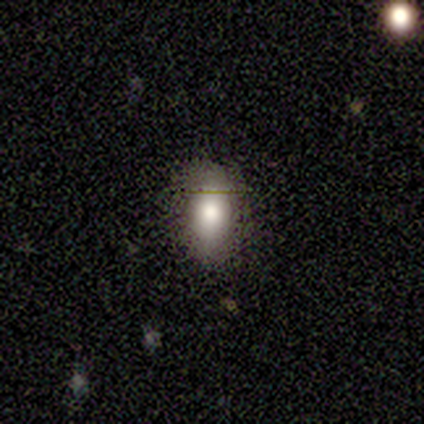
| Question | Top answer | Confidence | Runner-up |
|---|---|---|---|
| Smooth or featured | smooth | 100% | — |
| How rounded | round | 50% | tied: in between (50%) |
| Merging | none | 100% | — |